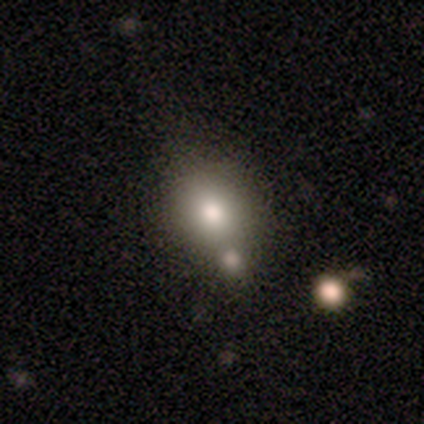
Q: Smooth or featured?
A: smooth (80%); runner-up: star or artifact (20%)
Q: How rounded?
A: round (75%); runner-up: in between (25%)
Q: Merging?
A: minor disturbance (50%); tied with: merger (50%)